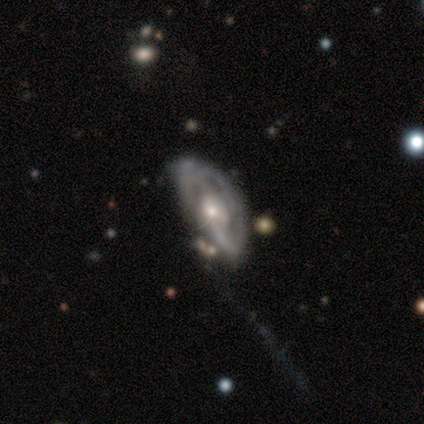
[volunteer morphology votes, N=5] Smooth or featured?
  - featured or disk: 100% *
  - smooth: 0%
  - star or artifact: 0%
Edge-on disk?
  - no: 100% *
  - yes: 0%
Bar?
  - no: 80% *
  - strong: 20%
  - weak: 0%
Spiral arms?
  - yes: 100% *
  - no: 0%
Spiral winding?
  - loose: 80% *
  - medium: 20%
  - tight: 0%
Spiral arm count?
  - 2: 60% *
  - 3: 40%
  - 1: 0%
  - 4: 0%
  - more than 4: 0%
  - can't tell: 0%
Bulge size?
  - moderate: 40% * (tied)
  - small: 40% * (tied)
  - large: 20%
  - dominant: 0%
  - none: 0%
Merging?
  - minor disturbance: 60% *
  - none: 40%
  - major disturbance: 0%
  - merger: 0%